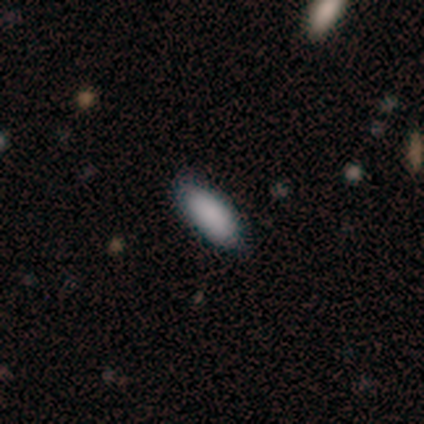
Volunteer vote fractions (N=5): Smooth or featured?
  - smooth: 100% *
  - featured or disk: 0%
  - star or artifact: 0%
How rounded?
  - in between: 100% *
  - round: 0%
  - cigar-shaped: 0%
Merging?
  - none: 80% *
  - minor disturbance: 20%
  - major disturbance: 0%
  - merger: 0%